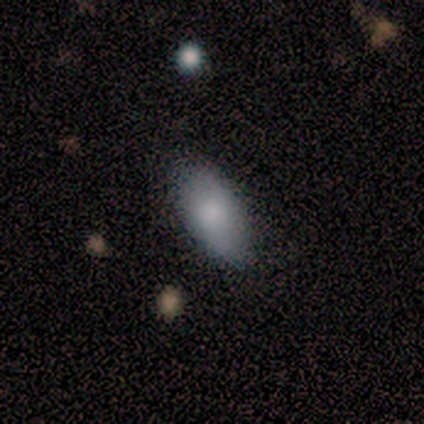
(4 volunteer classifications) smooth-or-featured: smooth: 50% | featured or disk: 25% | star or artifact: 25%
  how-rounded: in between: 100% | round: 0% | cigar-shaped: 0%
  merging: none: 67% | minor disturbance: 33% | major disturbance: 0% | merger: 0%